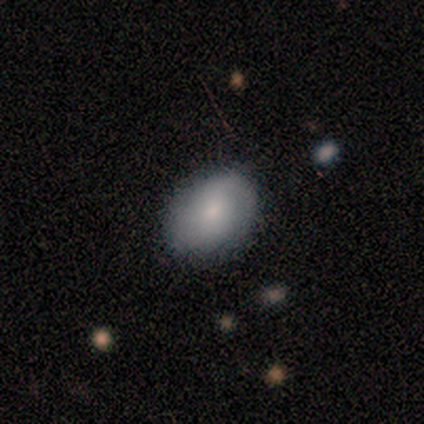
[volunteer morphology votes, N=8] Overall: smooth (50%, tied with featured or disk). How rounded: in between (75%). Merging: none (88%).